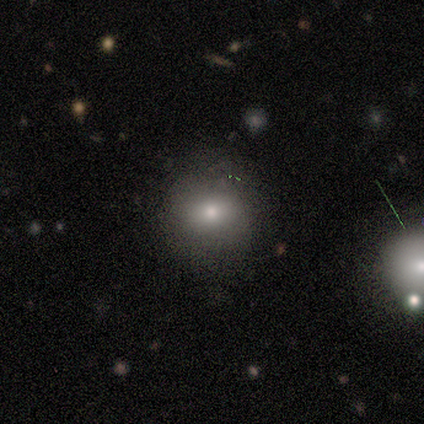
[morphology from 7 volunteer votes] A smooth galaxy with no disk features (86%) that is round (67%).

Vote fractions:
- Smooth or featured? smooth: 86% / star or artifact: 14% / featured or disk: 0%
- How rounded? round: 67% / in between: 33% / cigar-shaped: 0%
- Merging? none: 83% / minor disturbance: 17% / major disturbance: 0% / merger: 0%